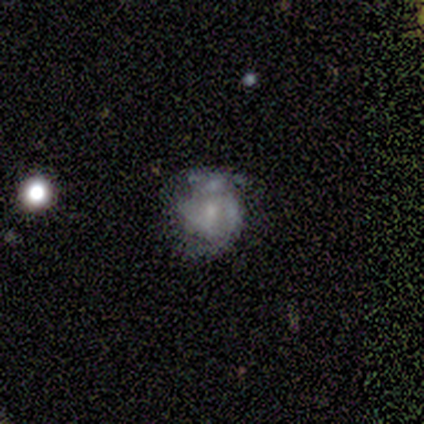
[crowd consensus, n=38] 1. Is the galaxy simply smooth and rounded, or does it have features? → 76% featured or disk, 13% smooth, 11% star or artifact.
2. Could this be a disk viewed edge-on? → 93% no, 7% yes.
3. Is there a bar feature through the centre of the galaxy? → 70% no, 30% weak, 0% strong.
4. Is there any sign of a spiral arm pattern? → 56% yes, 44% no.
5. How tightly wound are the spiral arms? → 53% tight, 33% medium, 13% loose.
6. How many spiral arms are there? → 47% 2 (tied), 47% can't tell (tied), 7% 3, 0% 1, 0% 4, 0% more than 4.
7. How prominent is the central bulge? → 63% small, 19% moderate, 19% none, 0% dominant, 0% large.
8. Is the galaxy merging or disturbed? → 59% none, 18% minor disturbance, 18% major disturbance, 6% merger.